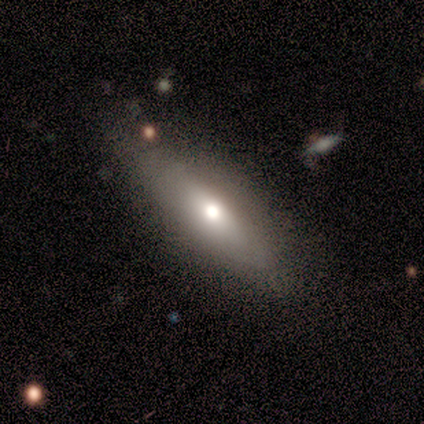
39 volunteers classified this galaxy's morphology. Volunteers were most divided on "smooth or featured": featured or disk: 51%, smooth: 44%, star or artifact: 5%. More confident: edge-on bulge — rounded (100%); merging — none (84%); edge-on disk — yes (60%).